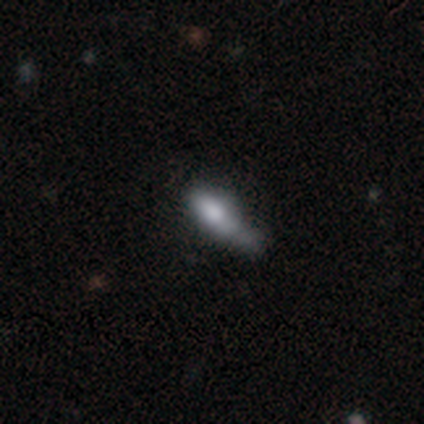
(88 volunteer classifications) Smooth or featured: smooth — 70% (featured or disk — 19%)
How rounded: cigar-shaped — 56% (in between — 44%)
Merging: minor disturbance — 38% (none — 30%)